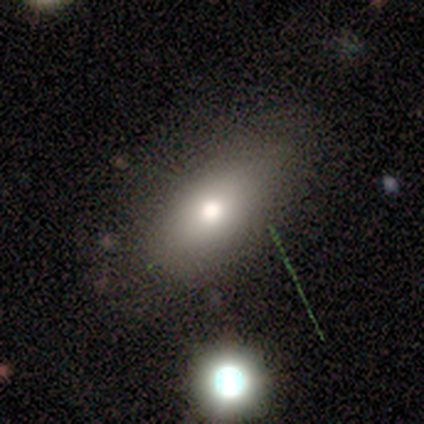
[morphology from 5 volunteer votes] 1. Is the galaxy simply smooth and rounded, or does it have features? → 60% smooth, 20% featured or disk, 20% star or artifact.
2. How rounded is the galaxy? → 100% in between, 0% round, 0% cigar-shaped.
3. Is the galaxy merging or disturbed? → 50% none, 25% minor disturbance, 25% major disturbance, 0% merger.